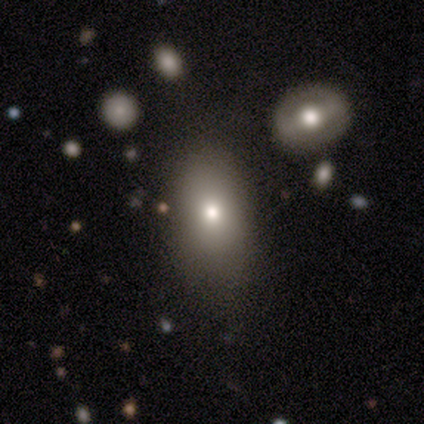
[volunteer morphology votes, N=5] Smooth or featured: smooth — 60% (featured or disk — 40%)
How rounded: round — 67% (in between — 33%)
Merging: none — 60% (minor disturbance — 40%)